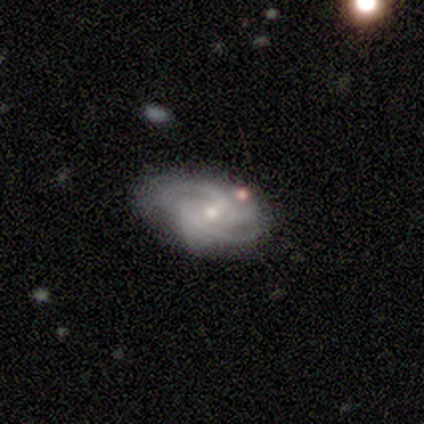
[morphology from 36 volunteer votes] This is clearly a featured or disk galaxy (92%). It is clearly not viewed edge-on (97%). Bar: possibly no (50%). Spiral arm pattern: clearly yes (97%). Spiral arm count: marginally 2 (42%). Spiral winding: possibly tight (58%). Central bulge: possibly small (50%). Merging: possibly none (48%).